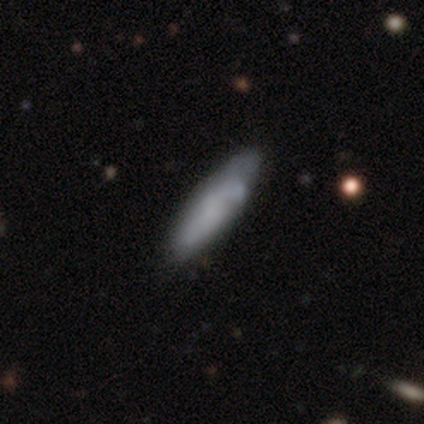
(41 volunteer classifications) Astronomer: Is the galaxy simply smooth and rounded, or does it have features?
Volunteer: smooth — 56% (runner-up: featured or disk, 41%).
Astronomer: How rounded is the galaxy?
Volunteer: cigar-shaped — 57% (runner-up: in between, 43%).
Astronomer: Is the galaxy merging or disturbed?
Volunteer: none — 40% (runner-up: minor disturbance, 25%).